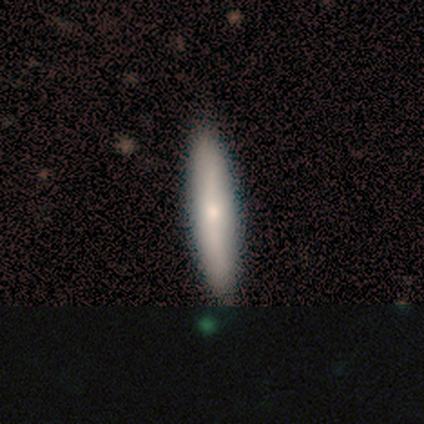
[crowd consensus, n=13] smooth 62%, featured or disk 38%, star or artifact 0%. Down the decision tree: how rounded — cigar-shaped (88%); merging — none (92%).